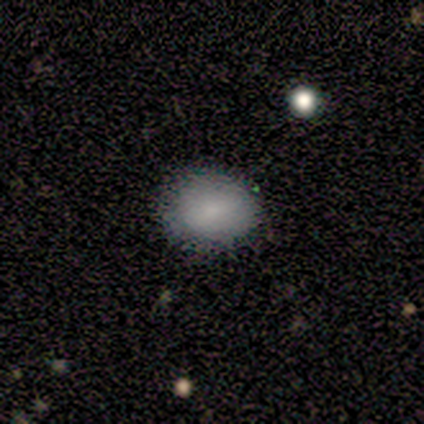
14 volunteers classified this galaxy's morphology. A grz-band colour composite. It shows a smooth galaxy with no disk features (71%) that is round (50%, tied with in between). Merging: none (100%).